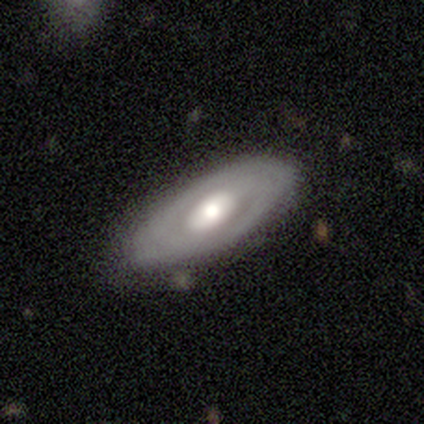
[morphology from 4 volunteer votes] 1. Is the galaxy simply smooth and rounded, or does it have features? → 75% featured or disk, 25% smooth, 0% star or artifact.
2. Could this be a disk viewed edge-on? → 100% no, 0% yes.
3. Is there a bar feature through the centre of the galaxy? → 67% weak, 33% no, 0% strong.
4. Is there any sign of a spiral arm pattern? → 67% no, 33% yes.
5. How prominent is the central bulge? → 100% moderate, 0% dominant, 0% large, 0% small, 0% none.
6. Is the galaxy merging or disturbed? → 100% none, 0% minor disturbance, 0% major disturbance, 0% merger.